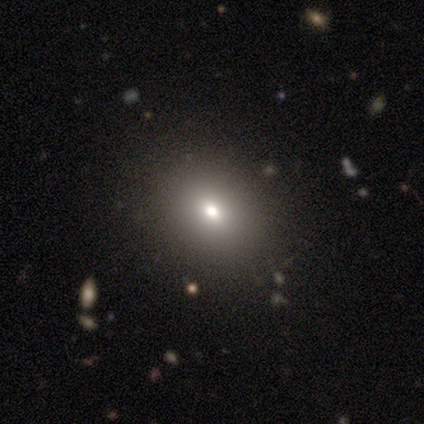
Smooth or featured?
  - smooth: 40% * (tied)
  - featured or disk: 40% * (tied)
  - star or artifact: 20%
How rounded?
  - round: 100% *
  - in between: 0%
  - cigar-shaped: 0%
Merging?
  - none: 75% *
  - minor disturbance: 25%
  - major disturbance: 0%
  - merger: 0%